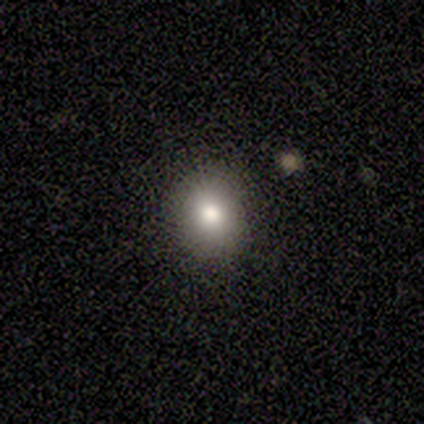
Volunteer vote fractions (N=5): This appears to be a smooth galaxy with no disk features (80%) that is round (75%). Merging: none (100%).